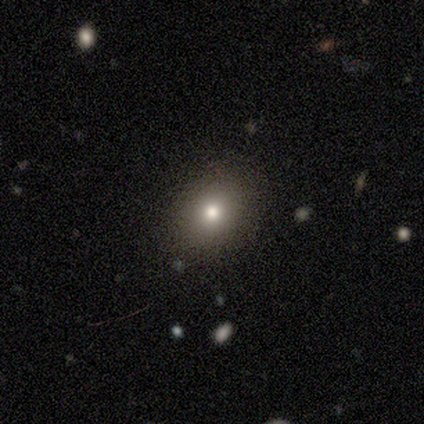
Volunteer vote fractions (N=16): A smooth galaxy with no disk features (69%) that is round (55%). Merging: none (92%).